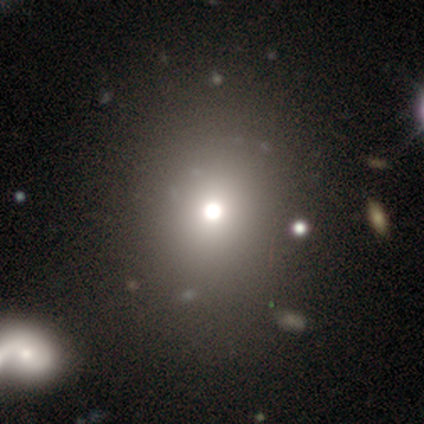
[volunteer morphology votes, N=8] Overall: star or artifact (62%; smooth 25%).